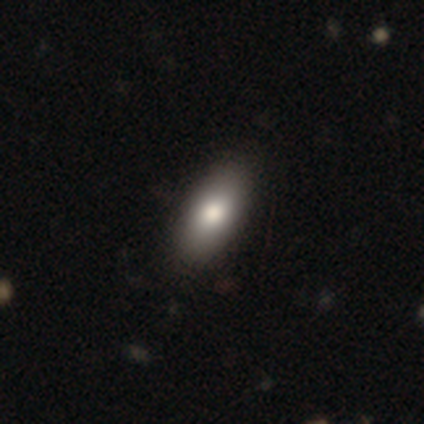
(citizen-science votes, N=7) A smooth galaxy with no disk features (86%) that is in between round and cigar-shaped (83%).

Vote fractions:
- Smooth or featured? smooth: 86% / star or artifact: 14% / featured or disk: 0%
- How rounded? in between: 83% / cigar-shaped: 17% / round: 0%
- Merging? none: 100% / minor disturbance: 0% / major disturbance: 0% / merger: 0%